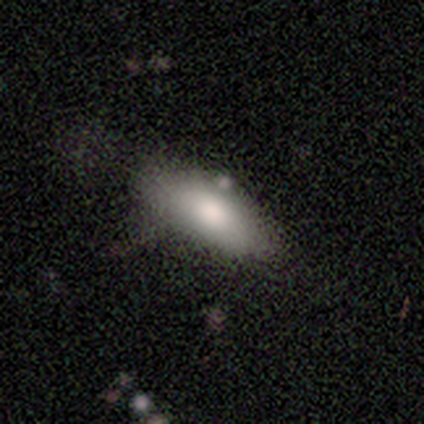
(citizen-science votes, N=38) Morphology: type=smooth (79%); roundness=in between (87%); merging=none (80%).